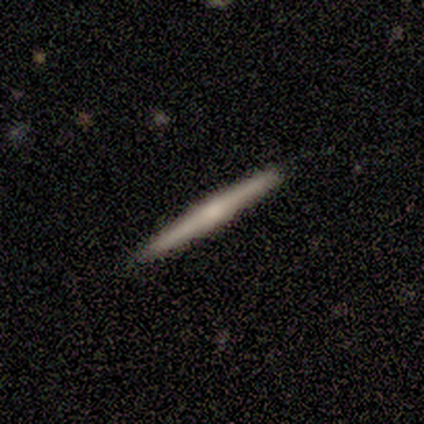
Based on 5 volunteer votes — Smooth or featured? 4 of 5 (80%) said featured or disk. Edge-on disk? 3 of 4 (75%) said yes. Edge-on bulge? 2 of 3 (67%) said rounded. Merging? 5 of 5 (100%) said none.